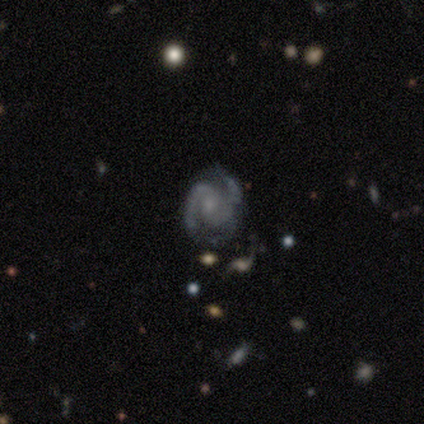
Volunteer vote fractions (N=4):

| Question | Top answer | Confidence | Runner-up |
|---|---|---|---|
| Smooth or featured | featured or disk | 100% | — |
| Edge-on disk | no | 100% | — |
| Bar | no | 75% | strong (25%) |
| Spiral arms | yes | 100% | — |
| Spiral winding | medium | 75% | loose (25%) |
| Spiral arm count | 2 | 75% | 3 (25%) |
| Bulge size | small | 75% | none (25%) |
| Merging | none | 100% | — |